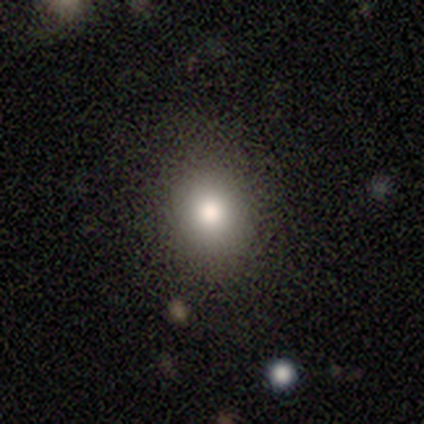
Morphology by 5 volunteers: type=smooth (60%); roundness=round (100%); merging=none (100%).